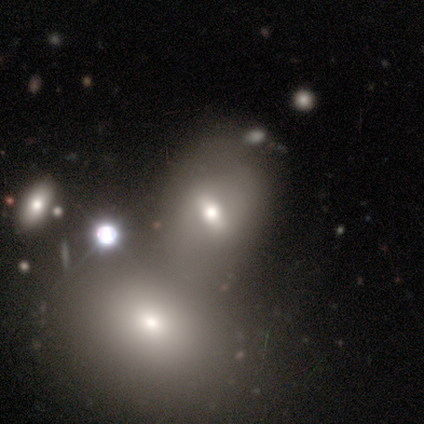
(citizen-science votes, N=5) Smooth or featured?
  - star or artifact: 60% *
  - smooth: 40%
  - featured or disk: 0%